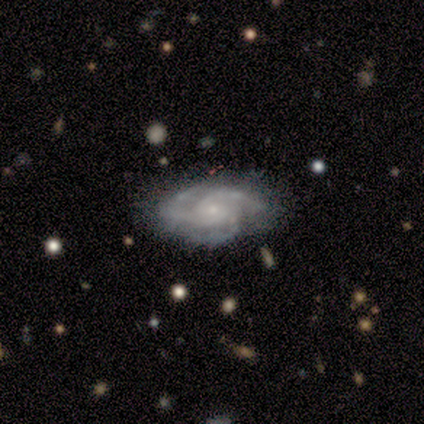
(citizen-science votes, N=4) This appears to be a featured or disk galaxy (100%) with no bar (75%), 3 (100%) tight (100%) spiral arms (100%) and a small central bulge (75%). Merging: none (50%).